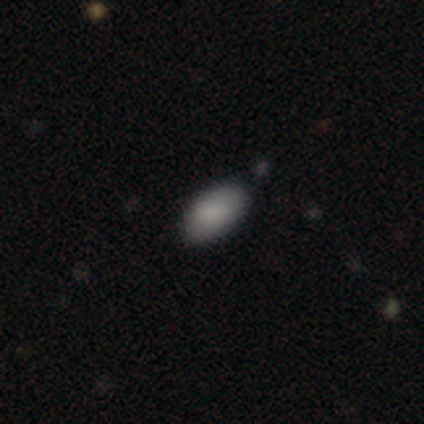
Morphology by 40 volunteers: Volunteers were most divided on "merging": none: 62%, minor disturbance: 10%, major disturbance: 5%, merger: 0%. More confident: how rounded — in between (97%); smooth or featured — smooth (82%).